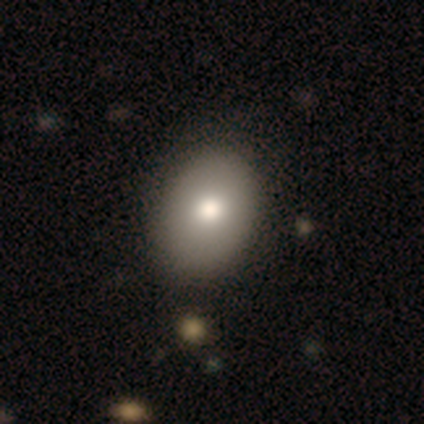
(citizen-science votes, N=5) Smooth or featured? 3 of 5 (60%) said smooth. How rounded? 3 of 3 (100%) said in between. Merging? 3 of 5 (60%) said none.